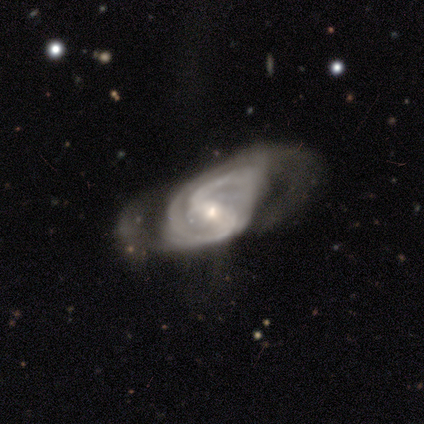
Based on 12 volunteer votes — A featured or disk galaxy (92%) with a strong bar (40%, tied with weak), 2 (70%) tight (50%) spiral arms (100%) and a moderate central bulge (50%, tied with small). Merging: major disturbance (50%).